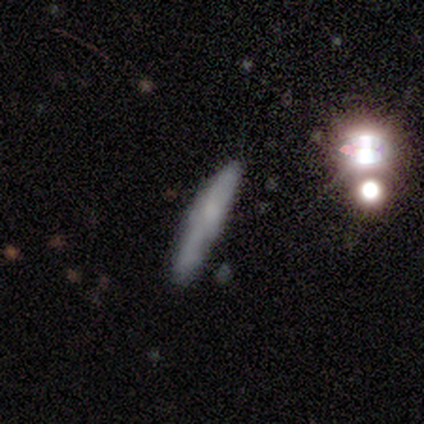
smooth_or_featured: featured or disk (p=1.00)
disk_edge_on: yes (p=0.75) [alt: no p=0.25]
edge_on_bulge: none (p=0.67) [alt: rounded p=0.33]
merging: none (p=1.00)